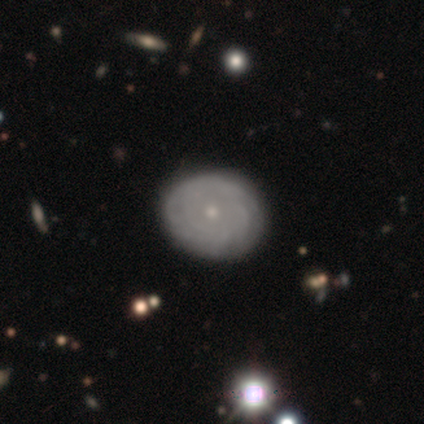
Smooth or featured? 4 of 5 (80%) said featured or disk. Edge-on disk? 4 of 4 (100%) said no. Bar? 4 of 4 (100%) said no. Spiral arms? 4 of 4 (100%) said yes. Spiral winding? 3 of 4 (75%) said tight. Spiral arm count? 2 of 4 (50%) said can't tell. Bulge size? 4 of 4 (100%) said small. Merging? 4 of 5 (80%) said none.